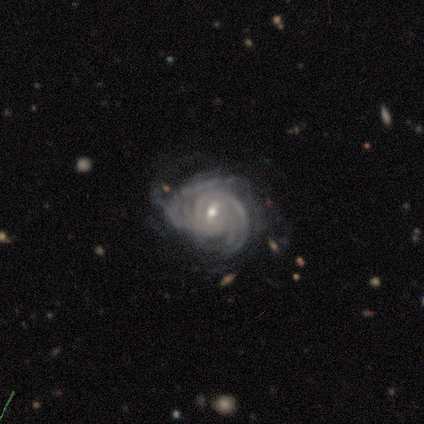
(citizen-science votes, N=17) Smooth or featured? featured or disk (88%)
Edge-on disk? no (100%)
Bar? weak (80%)
Spiral arms? yes (100%)
Spiral winding? tight (93%)
Spiral arm count? can't tell (47%)
Bulge size? moderate (60%)
Merging? none (56%)